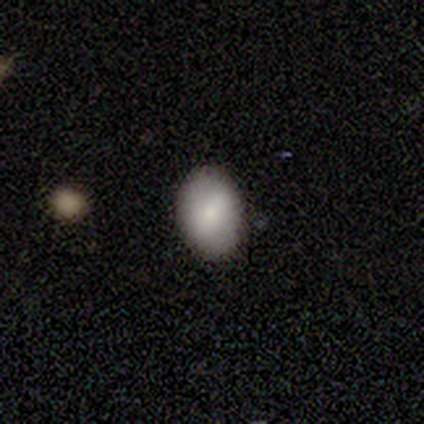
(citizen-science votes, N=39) Q: Smooth or featured?
A: smooth (77%); runner-up: featured or disk (21%)
Q: How rounded?
A: in between (90%); runner-up: round (10%)
Q: Merging?
A: none (89%); runner-up: minor disturbance (11%)